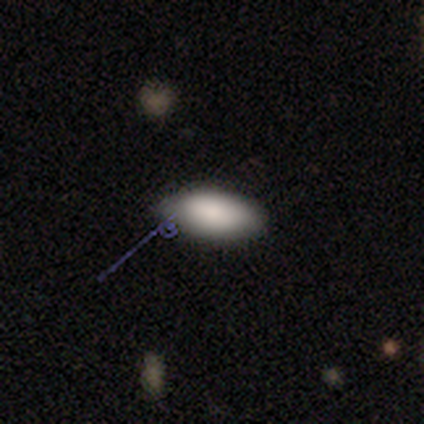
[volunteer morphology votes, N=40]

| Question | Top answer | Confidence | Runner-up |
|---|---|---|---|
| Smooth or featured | smooth | 92% | featured or disk (8%) |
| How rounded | in between | 95% | round (3%) |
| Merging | none | 62% | minor disturbance (18%) |